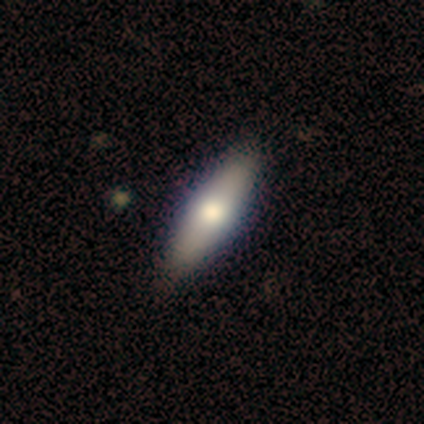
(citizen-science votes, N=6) Smooth or featured? 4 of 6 (67%) said smooth. How rounded? 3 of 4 (75%) said in between. Merging? 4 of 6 (67%) said none.